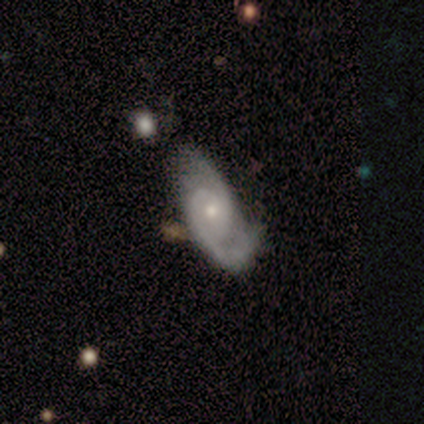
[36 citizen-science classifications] Q: Smooth or featured?
A: featured or disk (86%); runner-up: smooth (11%)
Q: Edge-on disk?
A: no (90%); runner-up: yes (10%)
Q: Bar?
A: no (79%); runner-up: weak (21%)
Q: Spiral arms?
A: yes (100%)
Q: Spiral winding?
A: medium (50%); runner-up: tight (36%)
Q: Spiral arm count?
A: 2 (93%); runner-up: 4 (4%)
Q: Bulge size?
A: small (71%); runner-up: moderate (21%)
Q: Merging?
A: none (63%); runner-up: minor disturbance (26%)